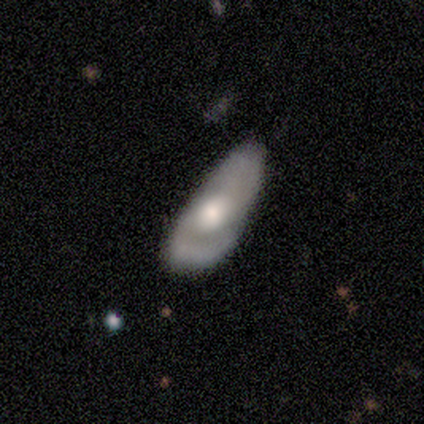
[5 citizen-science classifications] Smooth or featured: featured or disk — 60% (smooth — 20%)
Edge-on disk: no — 100%
Bar: no — 100%
Spiral arms: no — 67% (yes — 33%)
Bulge size: large — 67% (moderate — 33%)
Merging: none — 75% (minor disturbance — 25%)